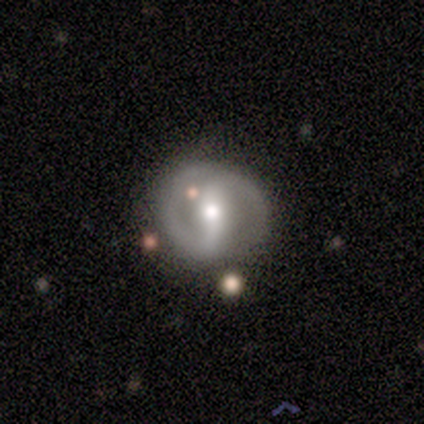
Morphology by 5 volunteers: Q: Smooth or featured?
A: featured or disk (100%)
Q: Edge-on disk?
A: no (100%)
Q: Bar?
A: strong (40%); tied with: no (40%)
Q: Spiral arms?
A: yes (100%)
Q: Spiral winding?
A: medium (40%); tied with: loose (40%)
Q: Spiral arm count?
A: 2 (100%)
Q: Bulge size?
A: moderate (80%); runner-up: large (20%)
Q: Merging?
A: none (40%); tied with: merger (40%)